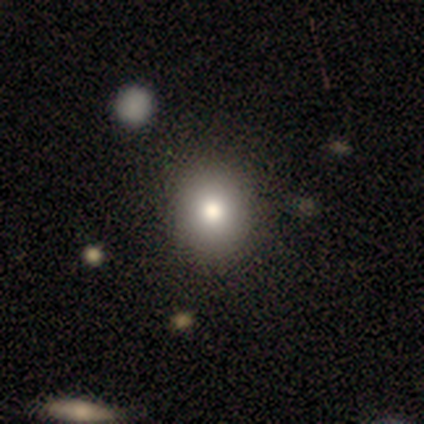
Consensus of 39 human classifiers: Smooth or featured? smooth (79%)
How rounded? round (77%)
Merging? none (78%)